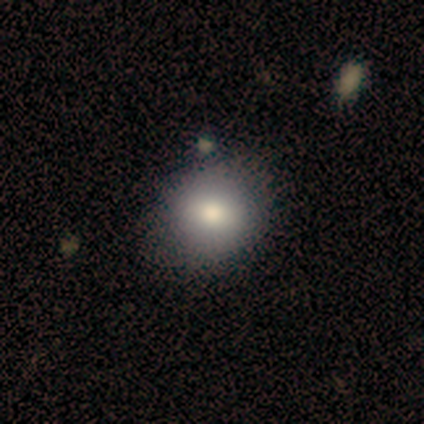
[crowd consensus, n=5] Smooth or featured? 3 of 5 (60%) said smooth. How rounded? 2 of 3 (67%) said in between. Merging? 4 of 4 (100%) said none.